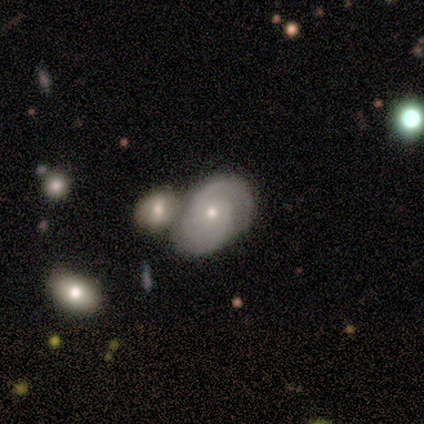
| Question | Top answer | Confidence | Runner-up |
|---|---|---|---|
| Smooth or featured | featured or disk | 100% | — |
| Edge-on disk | no | 100% | — |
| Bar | weak | 50% | tied: no (50%) |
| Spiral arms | yes | 100% | — |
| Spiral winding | tight | 50% | medium (25%) |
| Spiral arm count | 2 | 75% | can't tell (25%) |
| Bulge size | moderate | 50% | tied: small (50%) |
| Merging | none | 75% | merger (25%) |